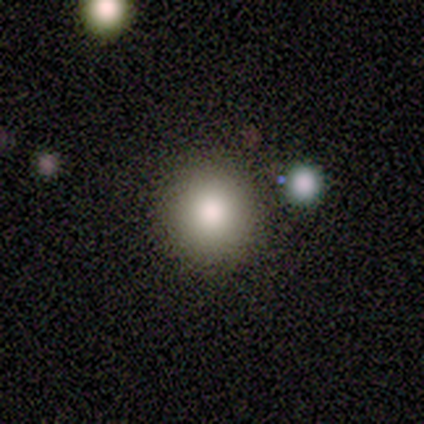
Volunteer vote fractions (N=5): This is clearly a smooth galaxy (100%). How rounded: clearly round (100%). Merging: clearly none (80%).